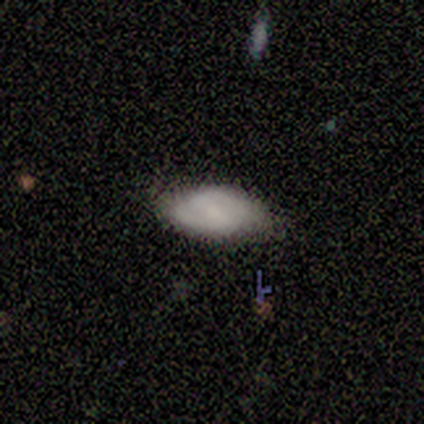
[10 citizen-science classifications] A smooth galaxy with no disk features (60%) that is in between round and cigar-shaped (100%).

Vote fractions:
- Smooth or featured? smooth: 60% / featured or disk: 30% / star or artifact: 10%
- How rounded? in between: 100% / round: 0% / cigar-shaped: 0%
- Merging? none: 67% / minor disturbance: 22% / major disturbance: 11% / merger: 0%